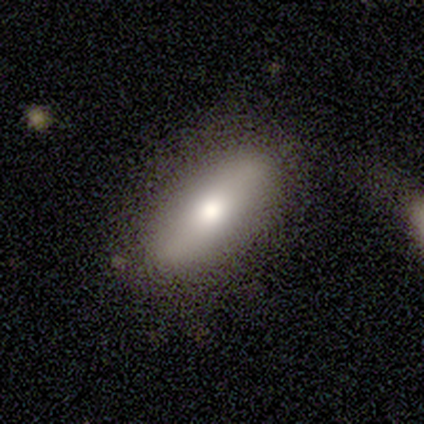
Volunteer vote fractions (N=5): Smooth or featured? 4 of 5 (80%) said smooth. How rounded? 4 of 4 (100%) said in between. Merging? 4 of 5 (80%) said none.